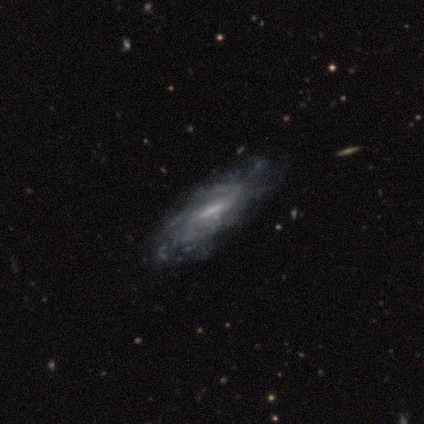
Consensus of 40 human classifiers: Morphology: type=featured or disk (85%); edge-on=no (79%); bar=weak (59%); spiral arms=yes (70%); winding=medium (47%); arm count=can't tell (58%); bulge=small (37%); merging=none (38%).